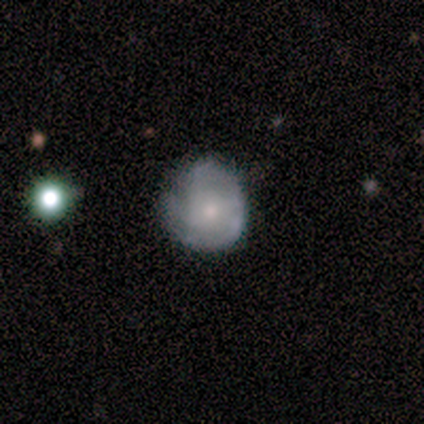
Smooth or featured? featured or disk (75%)
Edge-on disk? no (100%)
Bar? no (100%)
Spiral arms? yes (100%)
Spiral winding? medium (67%)
Spiral arm count? 2 (67%)
Bulge size? moderate (100%)
Merging? none (67%)